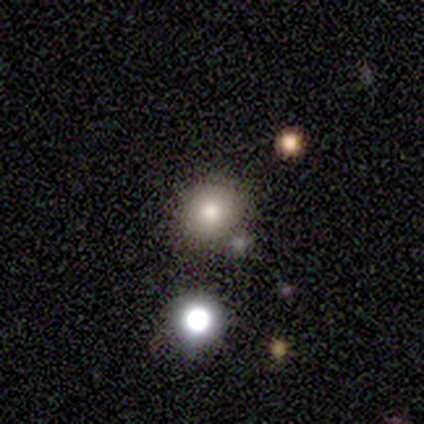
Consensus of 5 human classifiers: Morphology: type=smooth (80%); roundness=round (75%); merging=none (75%).